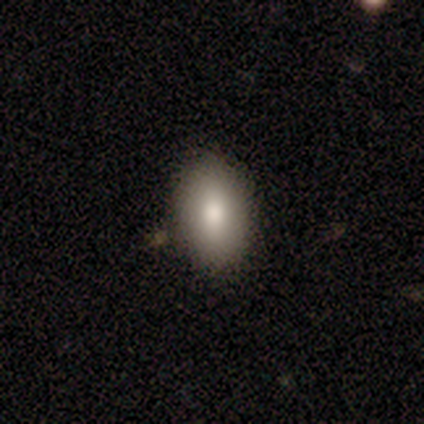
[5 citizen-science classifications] This appears to be a smooth galaxy with no disk features (80%) that is in between round and cigar-shaped (75%). Merging: none (100%).